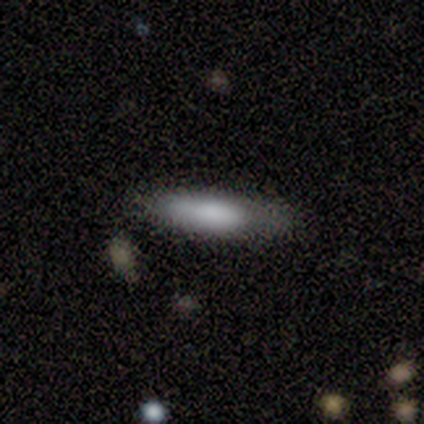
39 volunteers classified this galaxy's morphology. smooth-or-featured: smooth: 67% | featured or disk: 26% | star or artifact: 8%
  how-rounded: in between: 50% (tied) | cigar-shaped: 50% (tied) | round: 0%
  merging: none: 67% | minor disturbance: 25% | major disturbance: 8% | merger: 0%